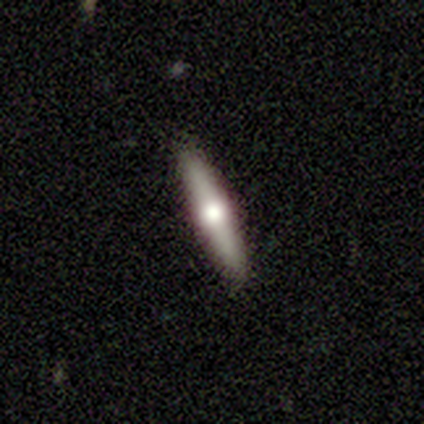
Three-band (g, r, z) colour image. It shows a featured or disk galaxy (64%) viewed edge-on (89%) with a rounded central bulge (100%). Merging: none (92%).